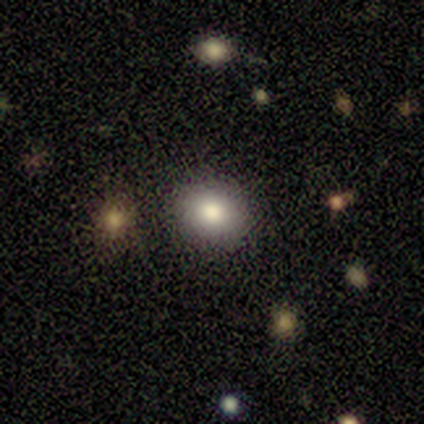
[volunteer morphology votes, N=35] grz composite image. It shows a smooth galaxy with no disk features (80%) that is round (71%). Merging: none (85%).